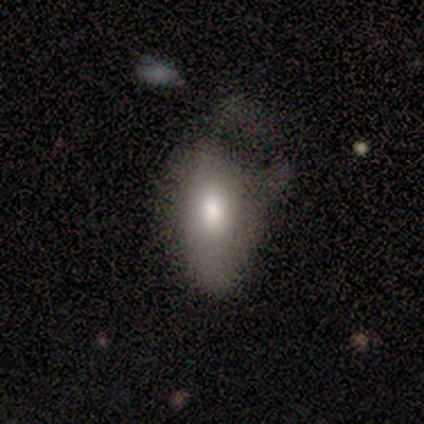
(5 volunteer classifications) Smooth or featured? 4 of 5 (80%) said smooth. How rounded? 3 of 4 (75%) said in between. Merging? 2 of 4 (50%) said minor disturbance.